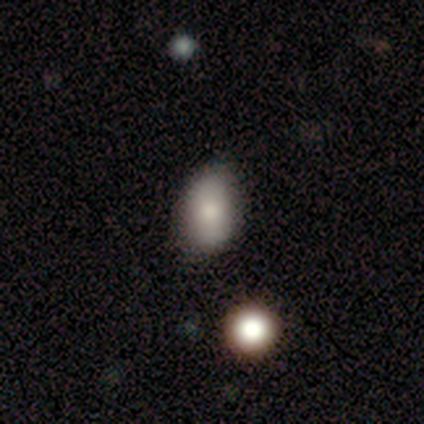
smooth-or-featured: smooth: 100% | featured or disk: 0% | star or artifact: 0%
  how-rounded: in between: 80% | round: 20% | cigar-shaped: 0%
  merging: none: 80% | minor disturbance: 20% | major disturbance: 0% | merger: 0%